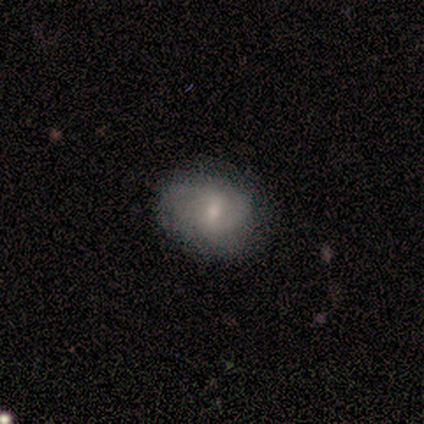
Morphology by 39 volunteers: Q: Smooth or featured?
A: smooth (51%); runner-up: featured or disk (41%)
Q: How rounded?
A: in between (75%); runner-up: round (25%)
Q: Merging?
A: none (72%); runner-up: minor disturbance (14%)